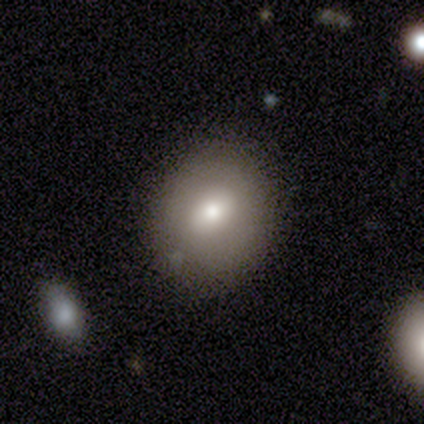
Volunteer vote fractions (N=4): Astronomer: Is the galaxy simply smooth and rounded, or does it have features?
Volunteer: smooth — 50%.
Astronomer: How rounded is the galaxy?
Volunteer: round — 50%, tied with in between at 50%.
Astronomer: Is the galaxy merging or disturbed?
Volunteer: none — 100%.